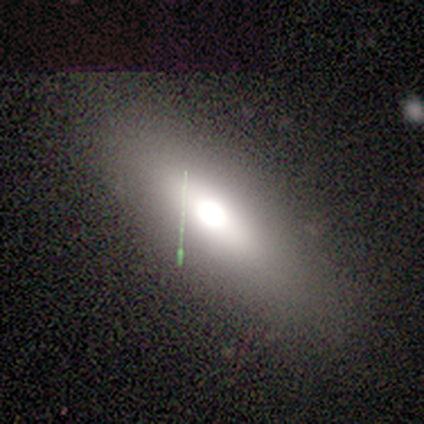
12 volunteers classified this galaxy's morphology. Smooth or featured: smooth — 50% (featured or disk — 42%)
How rounded: in between — 67% (cigar-shaped — 33%)
Merging: none — 82% (minor disturbance — 18%)